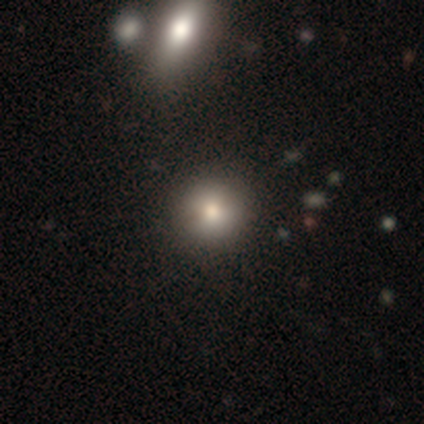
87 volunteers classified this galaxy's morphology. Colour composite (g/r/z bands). It shows a smooth galaxy with no disk features (77%) that is round (94%). Merging: none (82%).